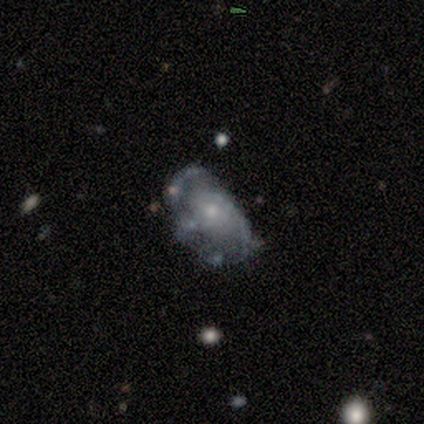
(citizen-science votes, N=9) Smooth or featured? 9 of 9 (100%) said featured or disk. Edge-on disk? 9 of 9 (100%) said no. Bar? 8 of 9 (89%) said no. Spiral arms? 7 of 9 (78%) said yes. Spiral winding? 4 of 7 (57%) said medium. Spiral arm count? 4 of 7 (57%) said 2. Bulge size? 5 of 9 (56%) said small. Merging? 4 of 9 (44%) said none.